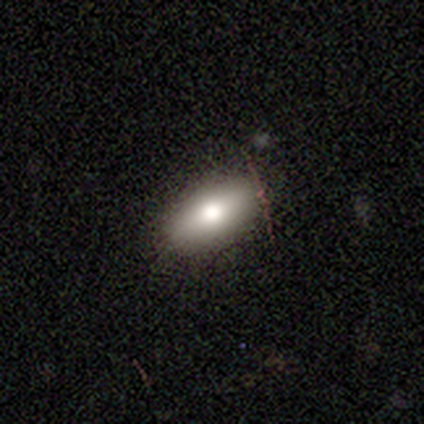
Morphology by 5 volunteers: A smooth galaxy with no disk features (80%) that is in between round and cigar-shaped (100%). Merging: none (100%).